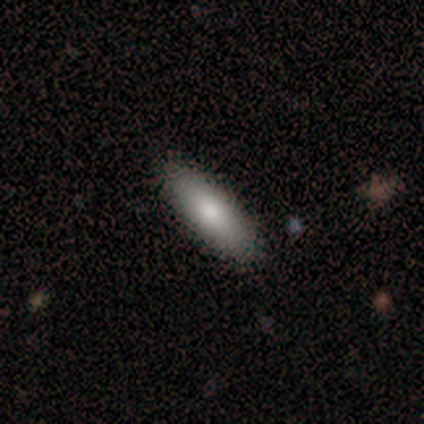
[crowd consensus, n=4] smooth 75%, star or artifact 25%, featured or disk 0%. Down the decision tree: how rounded — cigar-shaped (67%); merging — none (100%).